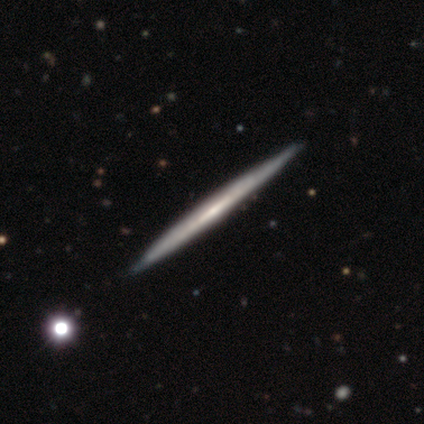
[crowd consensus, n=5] Overall: featured or disk (80%). Edge-on disk: yes (100%). Edge-on bulge: none (100%). Merging: none (100%).